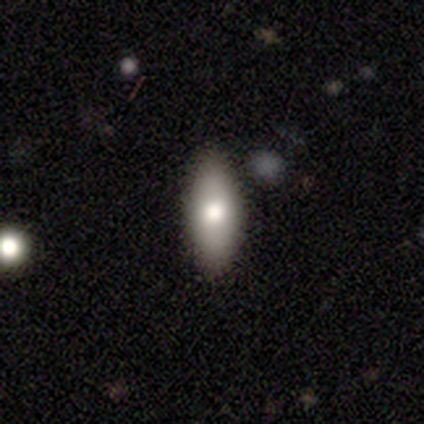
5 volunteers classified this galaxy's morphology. Smooth or featured? featured or disk (60%)
Edge-on disk? yes (67%)
Edge-on bulge? rounded (100%)
Merging? none (75%)